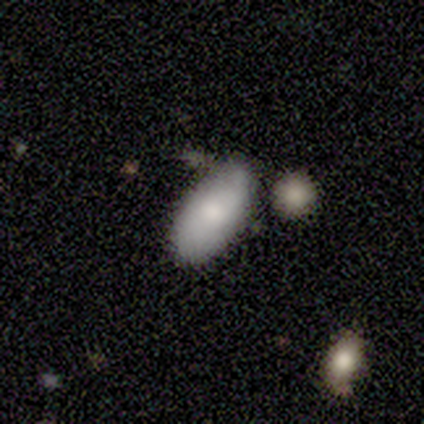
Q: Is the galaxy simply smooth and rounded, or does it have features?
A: smooth — 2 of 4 (50%, tied with featured or disk).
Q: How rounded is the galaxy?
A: in between — 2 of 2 (100%).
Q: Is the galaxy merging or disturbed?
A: none — 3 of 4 (75%).